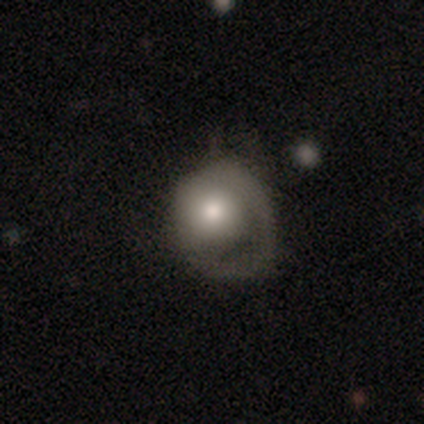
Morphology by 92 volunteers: Volunteers were most divided on "merging": major disturbance: 45%, minor disturbance: 32%, none: 24%, merger: 0%. More confident: how rounded — round (78%); smooth or featured — smooth (64%).